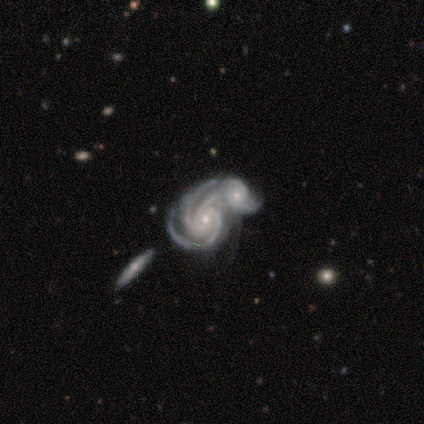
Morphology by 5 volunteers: smooth_or_featured: featured or disk (p=1.00)
disk_edge_on: no (p=1.00)
bar: no (p=1.00)
has_spiral_arms: yes (p=1.00)
spiral_winding: tight (p=1.00)
spiral_arm_count: 3 (p=0.60) [alt: more than 4 p=0.20]
bulge_size: small (p=1.00)
merging: merger (p=1.00)